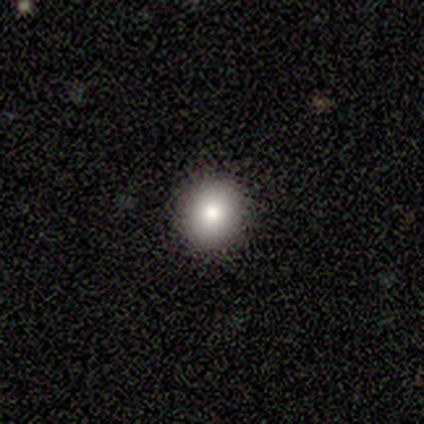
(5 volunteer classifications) smooth_or_featured: smooth (p=0.60) [alt: featured or disk p=0.40]
how_rounded: round (p=0.67) [alt: in between p=0.33]
merging: none (p=0.80) [alt: merger p=0.20]